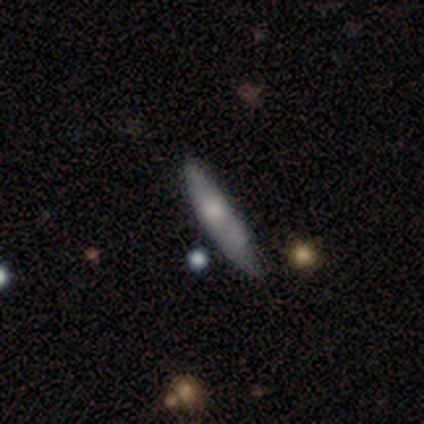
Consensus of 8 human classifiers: Overall: smooth (62%; featured or disk 38%). How rounded: cigar-shaped (80%). Merging: none (50%; minor disturbance 38%).